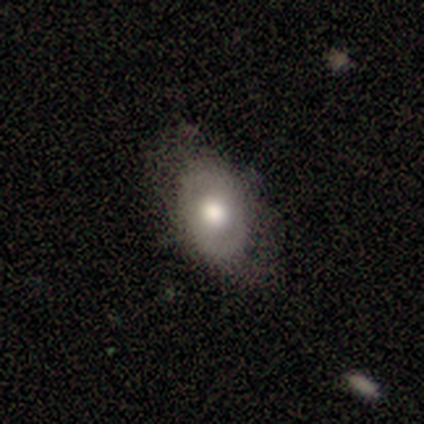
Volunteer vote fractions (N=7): A smooth galaxy with no disk features (57%) that is in between round and cigar-shaped (100%).

Vote fractions:
- Smooth or featured? smooth: 57% / featured or disk: 43% / star or artifact: 0%
- How rounded? in between: 100% / round: 0% / cigar-shaped: 0%
- Merging? none: 71% / minor disturbance: 14% / major disturbance: 14% / merger: 0%